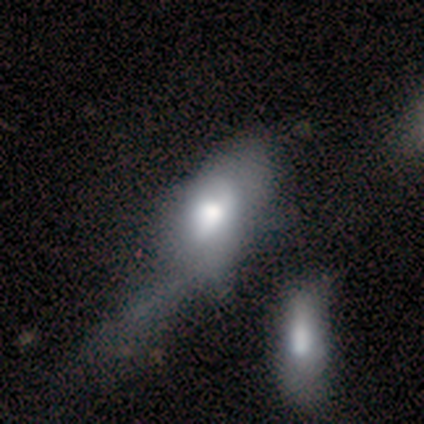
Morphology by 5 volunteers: smooth_or_featured: featured or disk (p=0.60) [alt: smooth p=0.40]
disk_edge_on: no (p=1.00)
bar: no (p=0.67) [alt: weak p=0.33]
has_spiral_arms: yes (p=0.67) [alt: no p=0.33]
spiral_winding: tight (p=0.50) [tied with: medium p=0.50]
spiral_arm_count: can't tell (p=1.00)
bulge_size: moderate (p=0.67) [alt: large p=0.33]
merging: major disturbance (p=0.60) [alt: merger p=0.40]